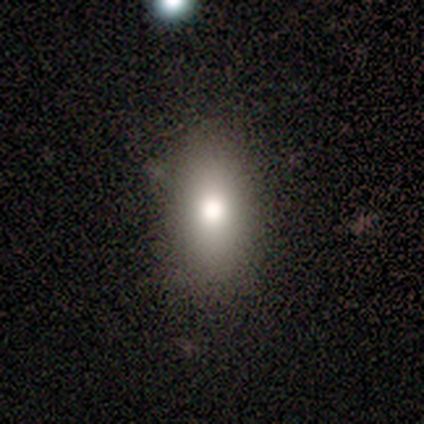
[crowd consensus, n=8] smooth_or_featured: smooth (p=0.75) [alt: featured or disk p=0.25]
how_rounded: in between (p=1.00)
merging: none (p=0.88) [alt: minor disturbance p=0.12]